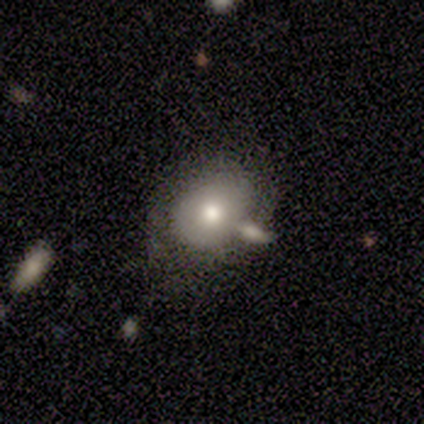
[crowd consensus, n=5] Overall: smooth (100%). How rounded: round (60%; in between 40%). Merging: none (80%).